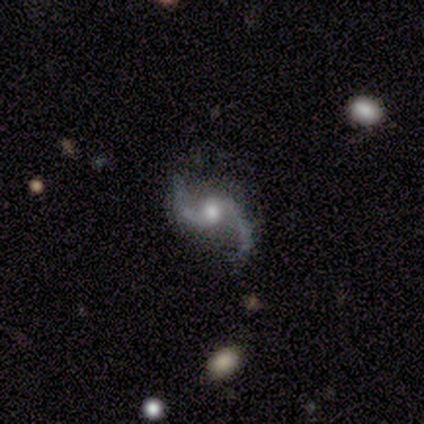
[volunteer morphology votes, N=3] Smooth or featured: featured or disk — 100%
Edge-on disk: no — 100%
Bar: weak — 67% (no — 33%)
Spiral arms: yes — 100%
Spiral winding: loose — 100%
Spiral arm count: 2 — 100%
Bulge size: moderate — 100%
Merging: none — 100%